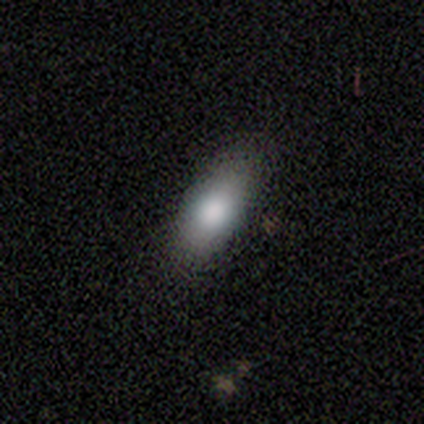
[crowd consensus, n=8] Volunteers were most divided on "smooth or featured": smooth: 75%, featured or disk: 25%, star or artifact: 0%. More confident: merging — none (88%); how rounded — in between (67%).